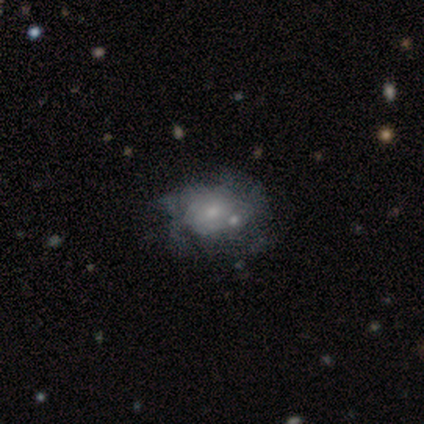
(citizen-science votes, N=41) Smooth or featured? 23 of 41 (56%) said featured or disk. Edge-on disk? 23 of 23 (100%) said no. Bar? 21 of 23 (91%) said no. Spiral arms? 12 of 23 (52%) said no. Bulge size? 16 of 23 (70%) said small. Merging? 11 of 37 (30%, tied with minor disturbance) said none.